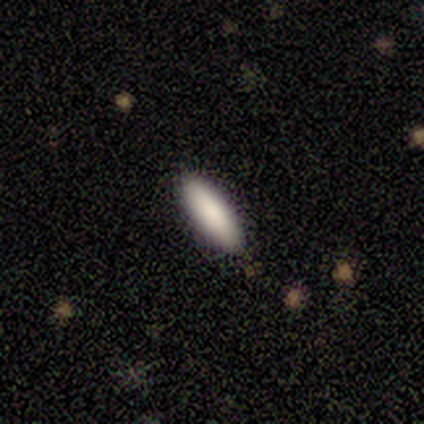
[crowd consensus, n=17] This appears to be a smooth galaxy with no disk features (94%) that is in between round and cigar-shaped (56%). Merging: none (88%).